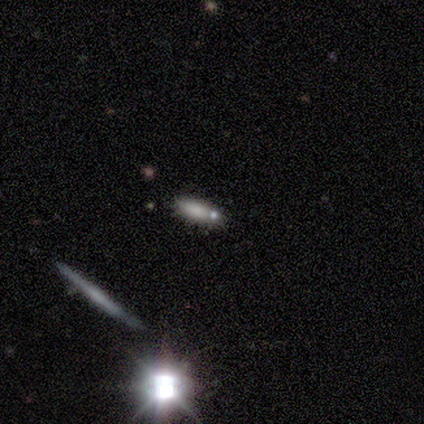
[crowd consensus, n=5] This appears to be a featured or disk galaxy (40%, tied with star or artifact) viewed edge-on (50%, tied with no) with no central bulge (100%). Merging: none (100%).